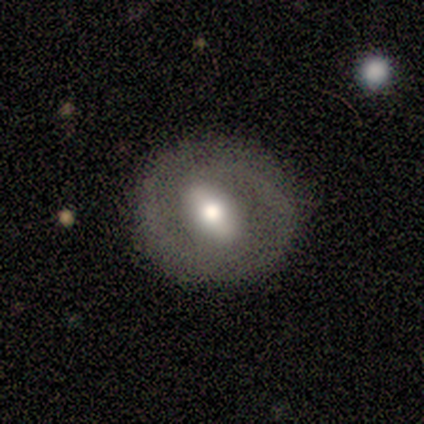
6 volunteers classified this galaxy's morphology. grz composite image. It shows a featured or disk galaxy (83%) with a strong bar (60%), 2 (40%, tied with can't tell) medium (80%) spiral arms (100%) and a moderate central bulge (60%). Merging: none (83%).